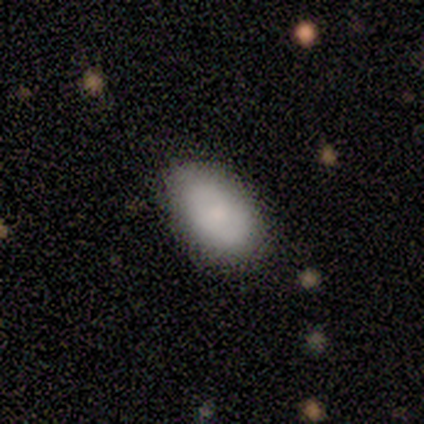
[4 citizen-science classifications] Smooth or featured?
  - smooth: 75% *
  - featured or disk: 25%
  - star or artifact: 0%
How rounded?
  - in between: 100% *
  - round: 0%
  - cigar-shaped: 0%
Merging?
  - none: 75% *
  - minor disturbance: 25%
  - major disturbance: 0%
  - merger: 0%